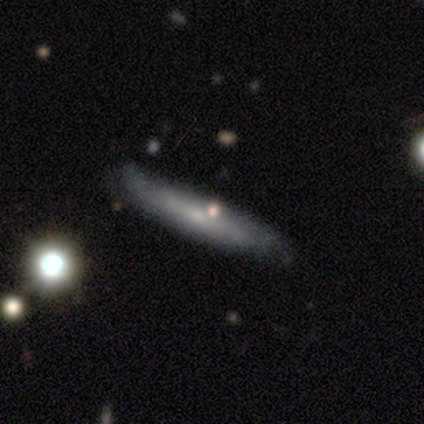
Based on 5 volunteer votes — smooth_or_featured: smooth (p=0.80) [alt: featured or disk p=0.20]
how_rounded: cigar-shaped (p=0.75) [alt: in between p=0.25]
merging: none (p=0.80) [alt: minor disturbance p=0.20]